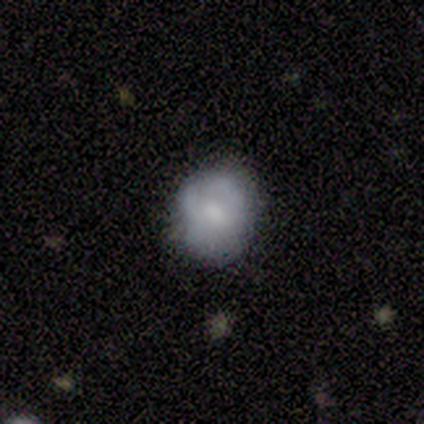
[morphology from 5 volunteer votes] This appears to be a smooth galaxy with no disk features (100%) that is in between round and cigar-shaped (60%). Merging: none (100%).